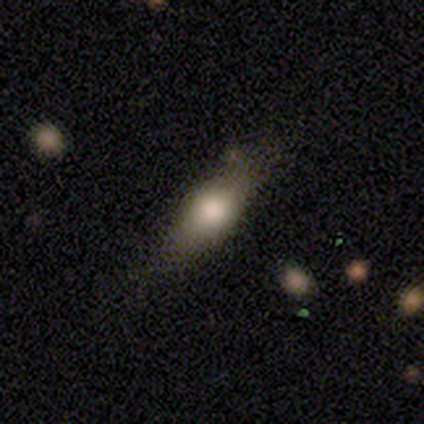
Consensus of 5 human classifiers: Smooth or featured? smooth (100%)
How rounded? in between (60%)
Merging? none (100%)